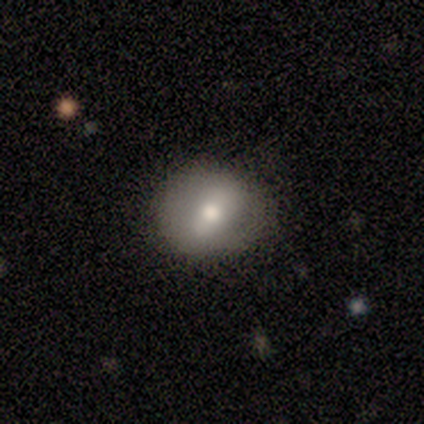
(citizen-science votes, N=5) smooth_or_featured: smooth (p=0.60) [alt: featured or disk p=0.20]
how_rounded: round (p=0.67) [alt: in between p=0.33]
merging: none (p=0.50) [tied with: minor disturbance p=0.50]